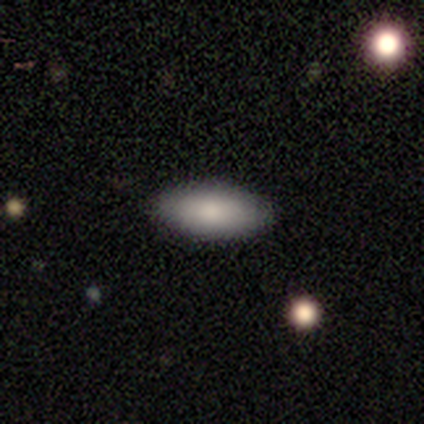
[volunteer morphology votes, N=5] type=featured or disk (60%); edge-on=no (67%); bar=no (100%); spiral arms=no (100%); bulge=moderate (50%, tied with small); merging=none (100%).